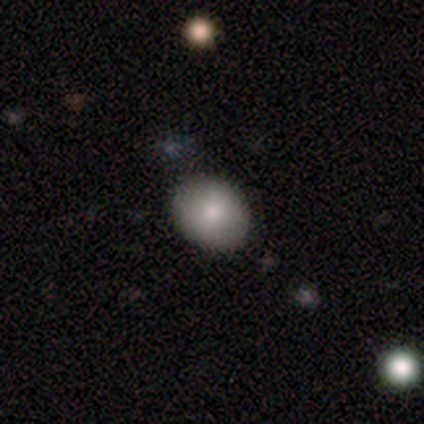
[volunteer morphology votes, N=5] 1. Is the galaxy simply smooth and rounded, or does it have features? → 100% smooth, 0% featured or disk, 0% star or artifact.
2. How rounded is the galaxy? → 60% round, 40% in between, 0% cigar-shaped.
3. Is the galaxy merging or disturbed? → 80% none, 20% minor disturbance, 0% major disturbance, 0% merger.